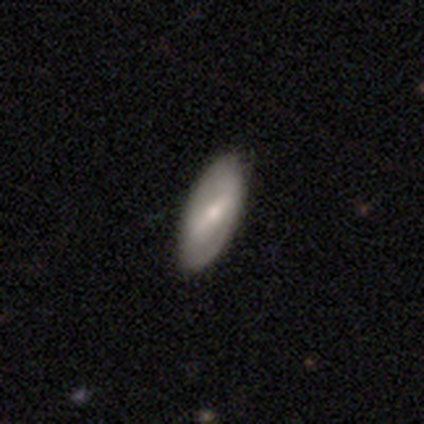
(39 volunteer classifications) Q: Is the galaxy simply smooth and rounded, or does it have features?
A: smooth — 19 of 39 (49%, tied with featured or disk).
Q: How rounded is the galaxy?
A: in between — 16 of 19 (84%).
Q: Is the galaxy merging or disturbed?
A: none — 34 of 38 (89%).